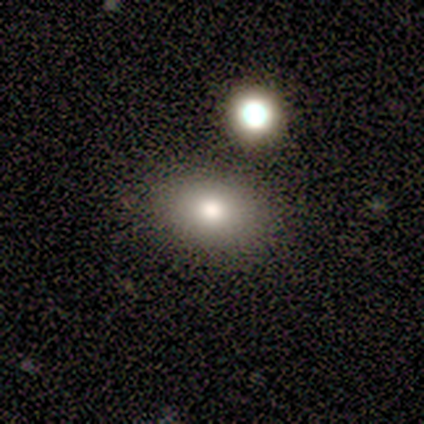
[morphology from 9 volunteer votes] Overall: smooth (78%). How rounded: in between (57%; round 43%). Merging: none (88%).